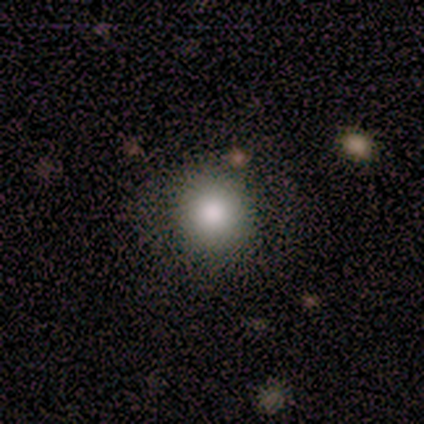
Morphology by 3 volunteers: smooth_or_featured: smooth (p=1.00)
how_rounded: round (p=1.00)
merging: none (p=1.00)